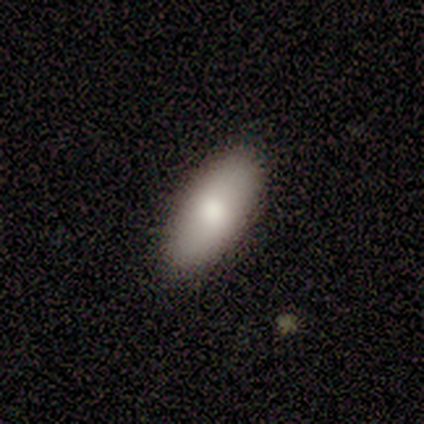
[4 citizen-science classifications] Smooth or featured? smooth (50%, tied with featured or disk)
How rounded? in between (100%)
Merging? none (100%)